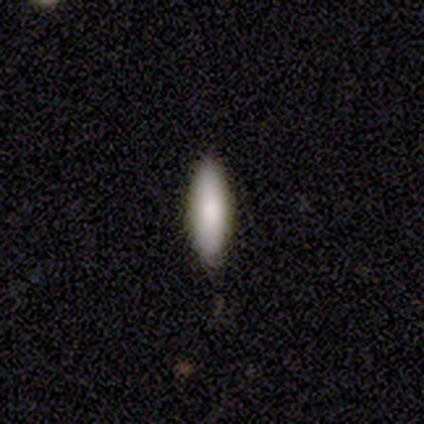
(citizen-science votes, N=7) Smooth or featured?
  - smooth: 86% *
  - featured or disk: 14%
  - star or artifact: 0%
How rounded?
  - cigar-shaped: 100% *
  - round: 0%
  - in between: 0%
Merging?
  - none: 86% *
  - merger: 14%
  - minor disturbance: 0%
  - major disturbance: 0%